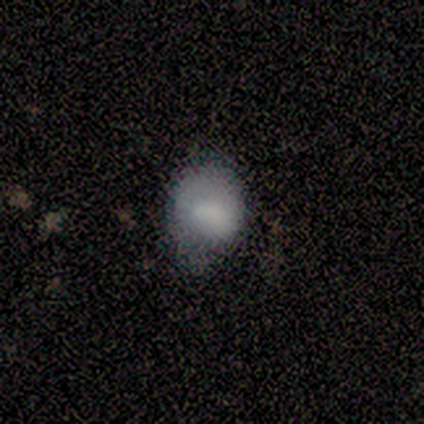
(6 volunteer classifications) smooth_or_featured: smooth (p=0.50) [tied with: featured or disk p=0.50]
how_rounded: in between (p=0.67) [alt: round p=0.33]
merging: minor disturbance (p=0.83) [alt: major disturbance p=0.17]